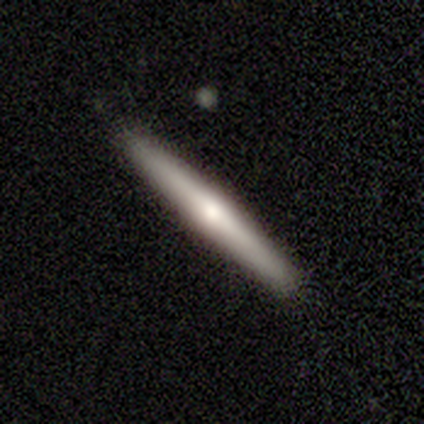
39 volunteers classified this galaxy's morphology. Overall: featured or disk (51%; smooth 44%). Edge-on disk: yes (100%). Edge-on bulge: rounded (90%). Merging: none (92%).